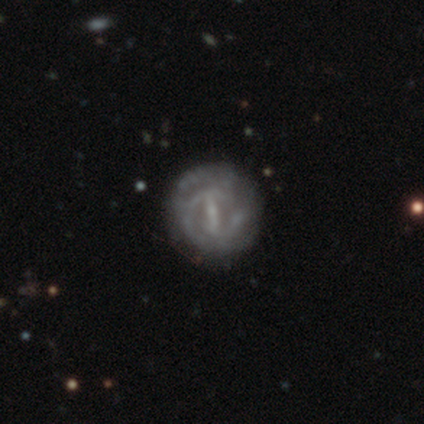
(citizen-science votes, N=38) This is clearly a featured or disk galaxy (82%). It is clearly not viewed edge-on (100%). Bar: possibly strong (48%). Spiral arm pattern: possibly yes (55%). Spiral arm count: possibly can't tell (47%). Spiral winding: possibly tight (59%). Central bulge: possibly small (58%). Merging: likely none (77%).